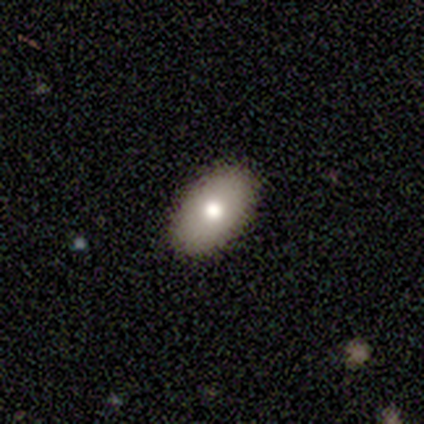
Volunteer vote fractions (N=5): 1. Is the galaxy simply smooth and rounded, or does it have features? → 80% smooth, 20% featured or disk, 0% star or artifact.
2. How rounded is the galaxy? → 100% in between, 0% round, 0% cigar-shaped.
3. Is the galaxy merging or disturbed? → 100% none, 0% minor disturbance, 0% major disturbance, 0% merger.